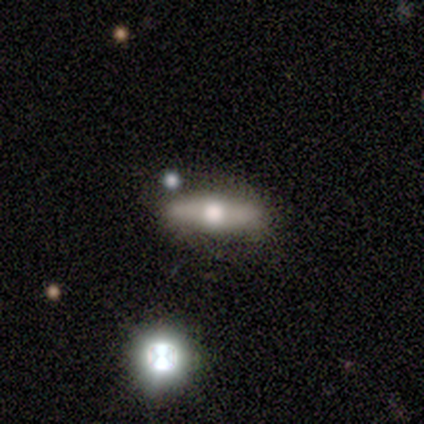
A featured or disk galaxy (100%) viewed edge-on (80%) with a rounded central bulge (100%). Merging: none (100%).